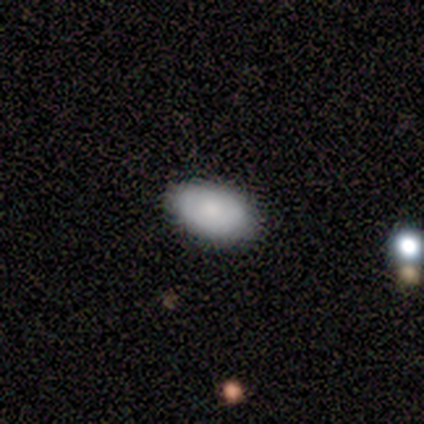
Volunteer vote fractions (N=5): Smooth or featured: smooth — 60% (featured or disk — 40%)
How rounded: in between — 100%
Merging: none — 100%